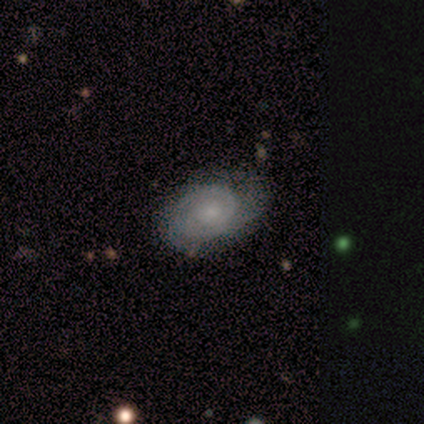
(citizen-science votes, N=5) Q: Smooth or featured?
A: featured or disk (100%)
Q: Edge-on disk?
A: no (100%)
Q: Bar?
A: no (80%); runner-up: strong (20%)
Q: Spiral arms?
A: yes (100%)
Q: Spiral winding?
A: tight (80%); runner-up: medium (20%)
Q: Spiral arm count?
A: can't tell (40%); runner-up: 1 (20%)
Q: Bulge size?
A: moderate (40%); tied with: small (40%)
Q: Merging?
A: none (80%); runner-up: minor disturbance (20%)